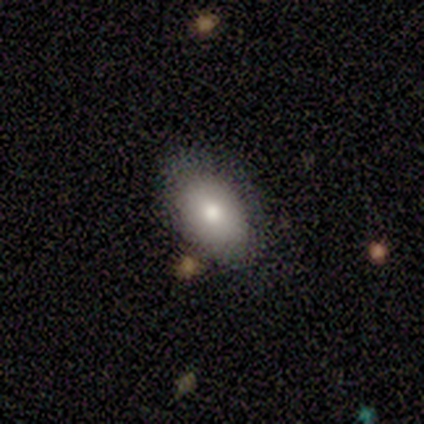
Smooth or featured: smooth — 50% (tied with featured or disk — 50%)
How rounded: in between — 100%
Merging: none — 100%